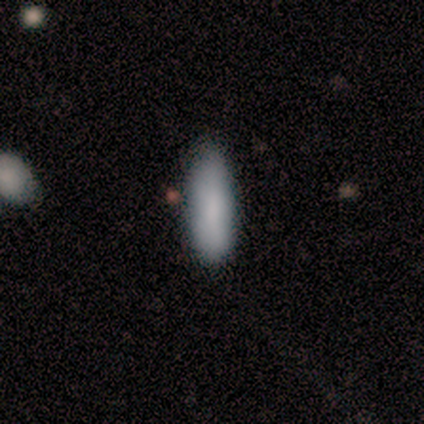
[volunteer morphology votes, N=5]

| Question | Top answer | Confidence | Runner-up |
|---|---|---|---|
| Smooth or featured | smooth | 80% | featured or disk (20%) |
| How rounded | in between | 75% | cigar-shaped (25%) |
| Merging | none | 80% | minor disturbance (20%) |